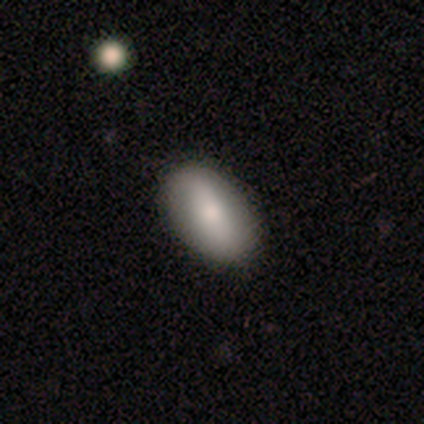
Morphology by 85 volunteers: Volunteers were most divided on "smooth or featured": smooth: 66%, featured or disk: 26%, star or artifact: 8%. More confident: how rounded — in between (89%); merging — none (85%).